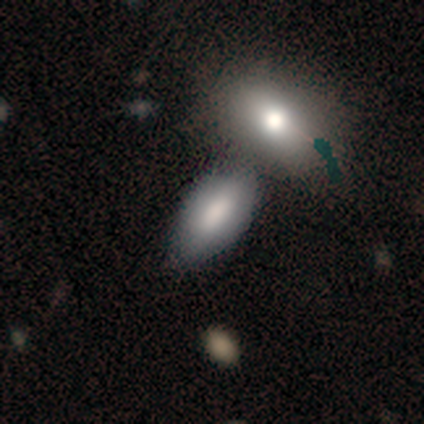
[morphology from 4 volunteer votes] Smooth or featured?
  - smooth: 100% *
  - featured or disk: 0%
  - star or artifact: 0%
How rounded?
  - in between: 100% *
  - round: 0%
  - cigar-shaped: 0%
Merging?
  - merger: 75% *
  - none: 25%
  - minor disturbance: 0%
  - major disturbance: 0%